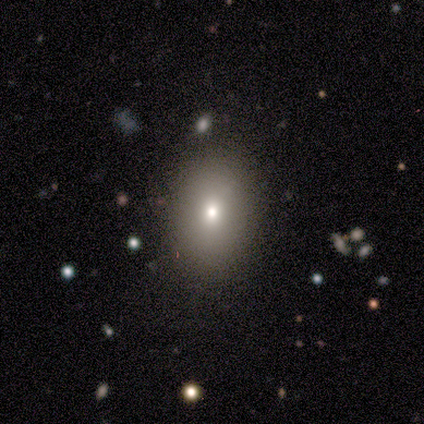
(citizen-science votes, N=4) smooth_or_featured: smooth (p=0.50) [tied with: star or artifact p=0.50]
how_rounded: in between (p=1.00)
merging: none (p=0.50) [tied with: minor disturbance p=0.50]